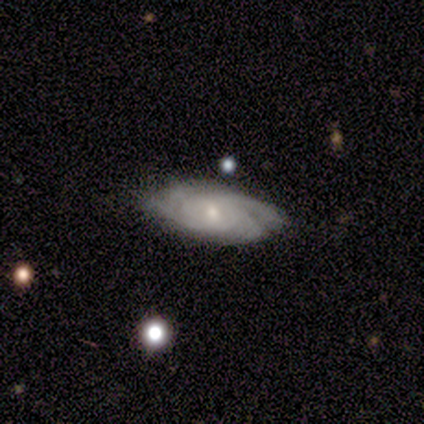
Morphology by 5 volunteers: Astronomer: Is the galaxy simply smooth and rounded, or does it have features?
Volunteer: featured or disk — 100%.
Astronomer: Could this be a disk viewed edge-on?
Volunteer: no — 100%.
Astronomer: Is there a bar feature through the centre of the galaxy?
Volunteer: no — 80%.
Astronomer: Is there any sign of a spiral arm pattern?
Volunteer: yes — 100%.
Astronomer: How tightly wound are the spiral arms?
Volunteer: tight — 60% (runner-up: medium, 40%).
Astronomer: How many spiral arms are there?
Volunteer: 3 — 40%, tied with can't tell at 40%.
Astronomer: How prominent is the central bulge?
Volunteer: moderate — 60% (runner-up: small, 40%).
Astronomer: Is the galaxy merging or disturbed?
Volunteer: none — 60% (runner-up: minor disturbance, 40%).